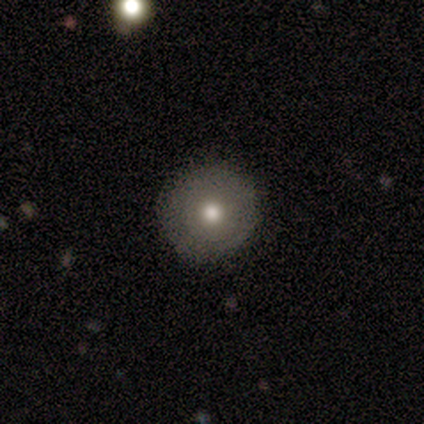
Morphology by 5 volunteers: Volunteers were most divided on "smooth or featured": smooth: 80%, featured or disk: 20%, star or artifact: 0%. More confident: how rounded — round (100%); merging — none (100%).